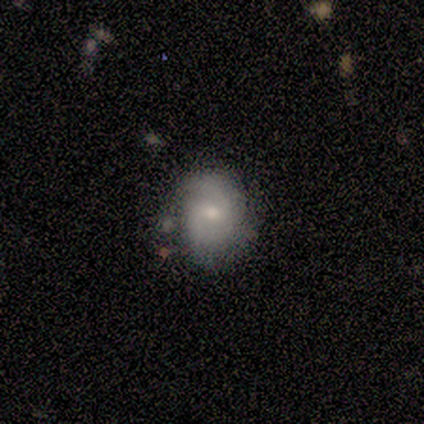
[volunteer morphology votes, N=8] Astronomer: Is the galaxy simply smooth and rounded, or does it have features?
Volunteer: featured or disk — 88%.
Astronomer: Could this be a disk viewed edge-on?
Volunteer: no — 100%.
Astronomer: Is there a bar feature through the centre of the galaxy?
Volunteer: weak — 71%.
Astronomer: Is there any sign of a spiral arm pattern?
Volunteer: yes — 71%.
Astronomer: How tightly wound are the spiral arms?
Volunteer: medium — 60%.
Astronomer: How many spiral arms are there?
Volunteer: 2 — 80%.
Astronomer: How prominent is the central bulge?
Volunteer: small — 71%.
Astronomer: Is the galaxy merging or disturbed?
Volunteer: none — 75%.